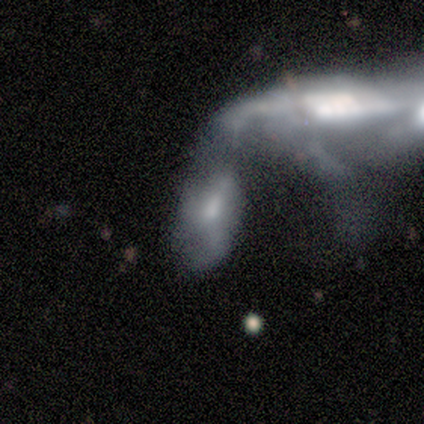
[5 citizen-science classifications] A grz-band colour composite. It shows a featured or disk galaxy (60%) with no bar (100%), no spiral arms (67%) and a small central bulge (67%). Merging: merger (100%).